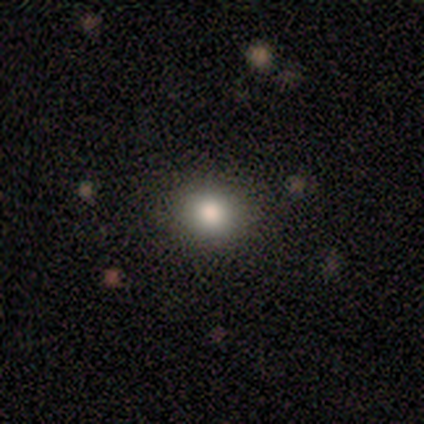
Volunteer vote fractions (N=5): smooth-or-featured: smooth: 100% | featured or disk: 0% | star or artifact: 0%
  how-rounded: round: 100% | in between: 0% | cigar-shaped: 0%
  merging: none: 100% | minor disturbance: 0% | major disturbance: 0% | merger: 0%